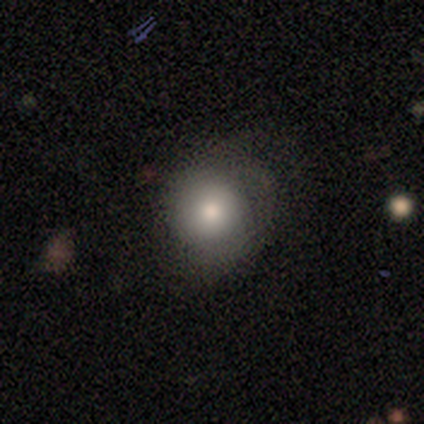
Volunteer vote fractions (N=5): Q: Smooth or featured?
A: smooth (80%); runner-up: star or artifact (20%)
Q: How rounded?
A: round (100%)
Q: Merging?
A: none (50%); runner-up: minor disturbance (25%)